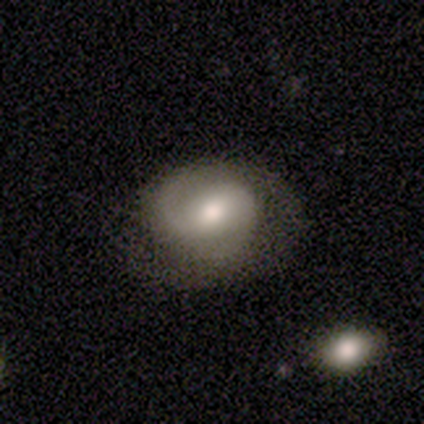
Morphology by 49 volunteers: featured or disk 76%, smooth 22%, star or artifact 2%. Down the decision tree: edge-on disk — no (100%); bar — weak (46%); spiral arms — yes (92%); spiral arm count — 2 (82%); spiral winding — medium (56%); bulge size — moderate (43%); merging — none (62%).